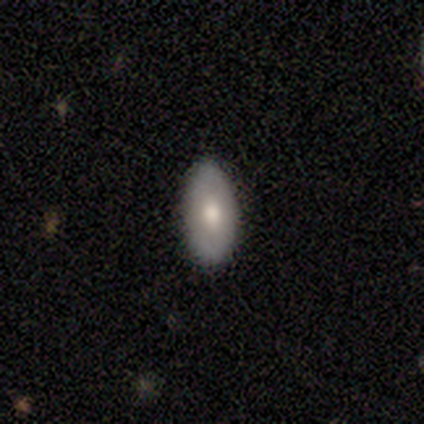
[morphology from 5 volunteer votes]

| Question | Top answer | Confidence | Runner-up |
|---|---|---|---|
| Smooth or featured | smooth | 80% | featured or disk (20%) |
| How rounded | in between | 75% | round (25%) |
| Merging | none | 80% | minor disturbance (20%) |